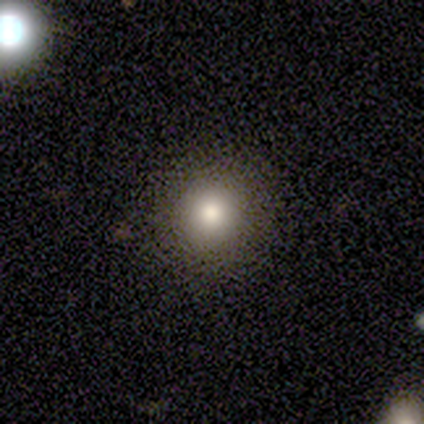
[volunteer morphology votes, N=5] smooth 80%, featured or disk 20%, star or artifact 0%. Down the decision tree: how rounded — round (100%); merging — none (80%).